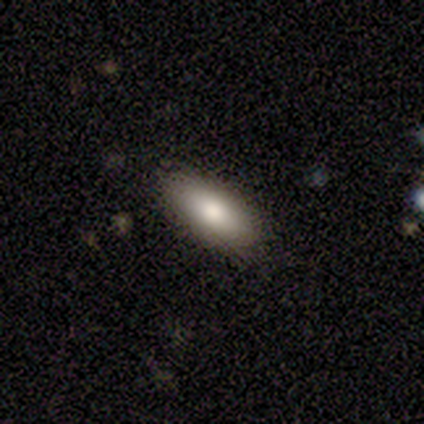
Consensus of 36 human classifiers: Smooth or featured?
  - smooth: 81% *
  - star or artifact: 11%
  - featured or disk: 8%
How rounded?
  - in between: 90% *
  - cigar-shaped: 10%
  - round: 0%
Merging?
  - none: 91% *
  - minor disturbance: 9%
  - major disturbance: 0%
  - merger: 0%